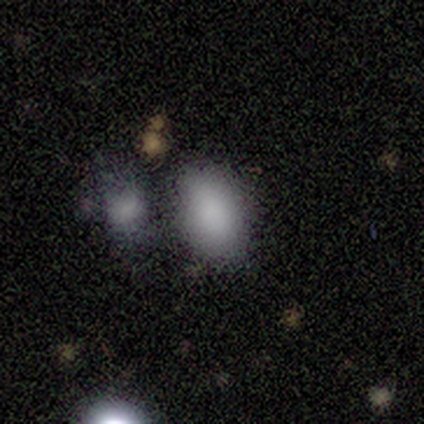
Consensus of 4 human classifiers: Smooth or featured?
  - smooth: 100% *
  - featured or disk: 0%
  - star or artifact: 0%
How rounded?
  - in between: 100% *
  - round: 0%
  - cigar-shaped: 0%
Merging?
  - none: 50% *
  - minor disturbance: 25%
  - merger: 25%
  - major disturbance: 0%